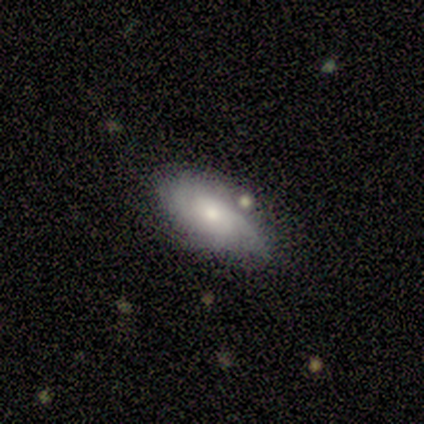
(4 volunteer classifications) Volunteers were most divided on "bar" (2-way tie): weak: 50%, no: 50%, strong: 0%. More confident: smooth or featured — featured or disk (100%); edge-on disk — no (100%); merging — none (100%); spiral arms — yes (75%); bulge size — small (75%); spiral winding — medium (67%); spiral arm count — 3 (67%).